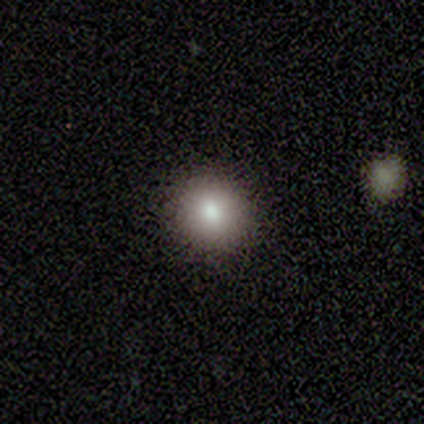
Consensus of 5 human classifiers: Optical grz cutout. It shows a smooth galaxy with no disk features (100%) that is round (100%). Merging: none (100%).